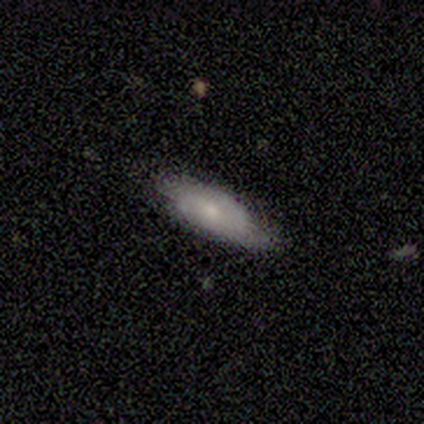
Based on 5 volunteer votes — Volunteers were most divided on "edge-on bulge" (2-way tie): none: 50%, rounded: 50%, boxy: 0%. More confident: edge-on disk — yes (67%); smooth or featured — featured or disk (60%); merging — none (60%).